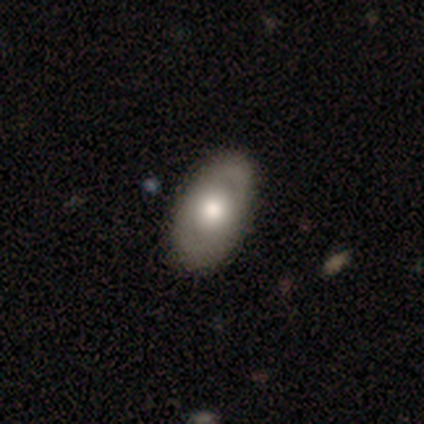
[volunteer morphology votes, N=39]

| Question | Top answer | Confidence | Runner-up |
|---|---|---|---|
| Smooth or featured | smooth | 51% | featured or disk (46%) |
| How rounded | in between | 85% | round (10%) |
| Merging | none | 61% | minor disturbance (8%) |